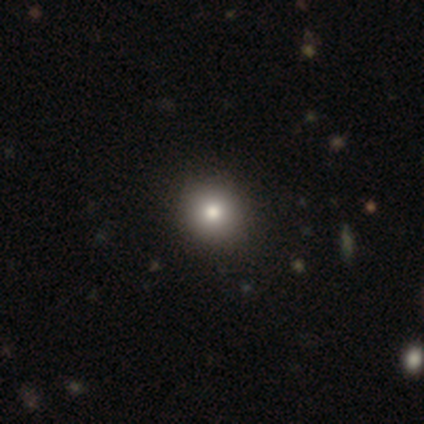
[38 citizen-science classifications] Q: Smooth or featured?
A: smooth (87%); runner-up: featured or disk (8%)
Q: How rounded?
A: round (85%); runner-up: in between (15%)
Q: Merging?
A: none (64%); runner-up: minor disturbance (6%)